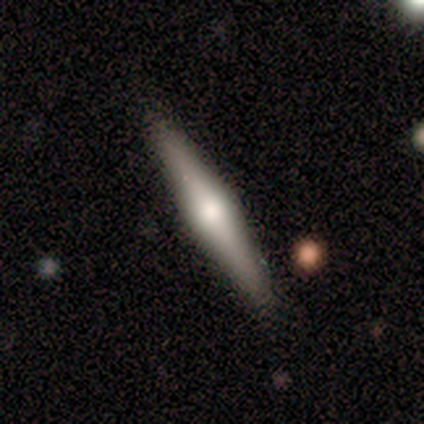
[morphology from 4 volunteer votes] Smooth or featured? 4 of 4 (100%) said featured or disk. Edge-on disk? 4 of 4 (100%) said yes. Edge-on bulge? 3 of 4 (75%) said rounded. Merging? 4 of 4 (100%) said none.